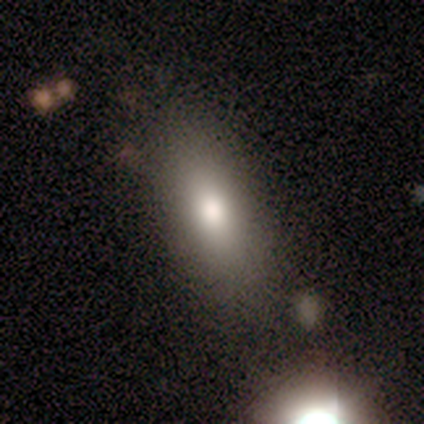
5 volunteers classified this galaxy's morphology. A smooth galaxy with no disk features (40%, tied with featured or disk) that is in between round and cigar-shaped (100%). Merging: none (100%).